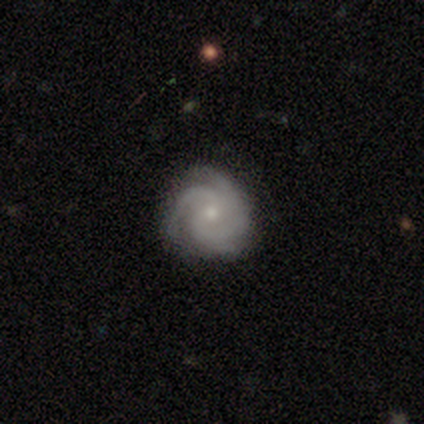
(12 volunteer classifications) Smooth or featured? 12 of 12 (100%) said featured or disk. Edge-on disk? 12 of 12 (100%) said no. Bar? 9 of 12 (75%) said no. Spiral arms? 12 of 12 (100%) said yes. Spiral winding? 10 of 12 (83%) said tight. Spiral arm count? 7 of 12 (58%) said 3. Bulge size? 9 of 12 (75%) said small. Merging? 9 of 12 (75%) said none.